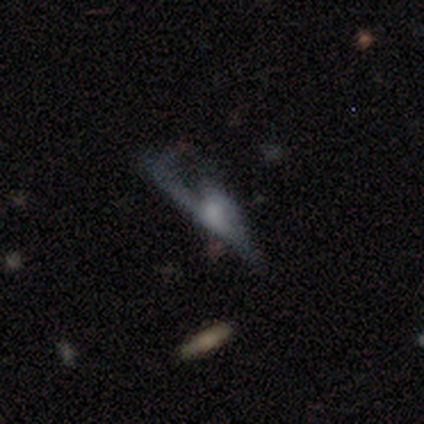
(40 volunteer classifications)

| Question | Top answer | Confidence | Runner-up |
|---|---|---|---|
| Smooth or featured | featured or disk | 50% | smooth (30%) |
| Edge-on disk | no | 75% | yes (25%) |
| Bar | no | 93% | strong (7%) |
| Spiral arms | no | 60% | yes (40%) |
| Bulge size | moderate | 40% | large (20%) |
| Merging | major disturbance | 62% | none (19%) |